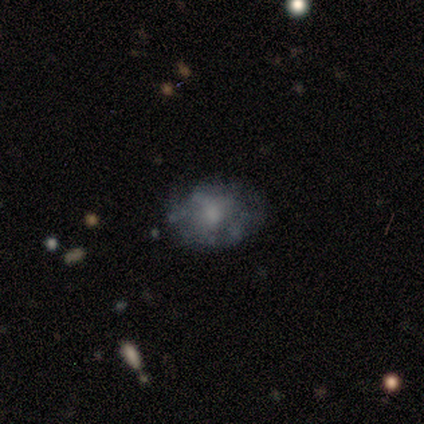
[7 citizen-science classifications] featured or disk 57%, smooth 43%, star or artifact 0%. Down the decision tree: edge-on disk — no (100%); bar — no (100%); spiral arms — no (100%); bulge size — moderate (75%); merging — none (43%, tied with minor disturbance).